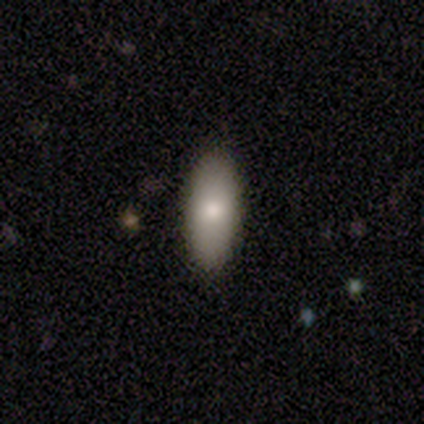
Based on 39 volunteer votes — Smooth or featured: smooth — 77% (featured or disk — 18%)
How rounded: in between — 90% (cigar-shaped — 7%)
Merging: none — 95% (minor disturbance — 5%)